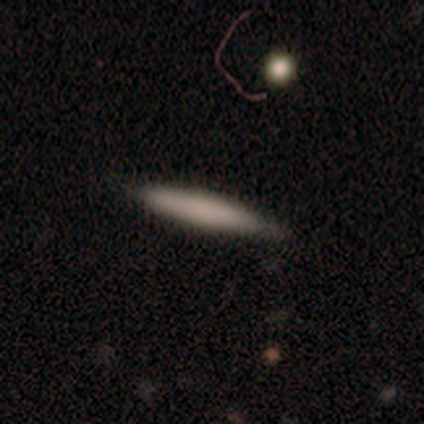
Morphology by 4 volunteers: Q: Smooth or featured?
A: smooth (100%)
Q: How rounded?
A: cigar-shaped (75%); runner-up: in between (25%)
Q: Merging?
A: none (100%)